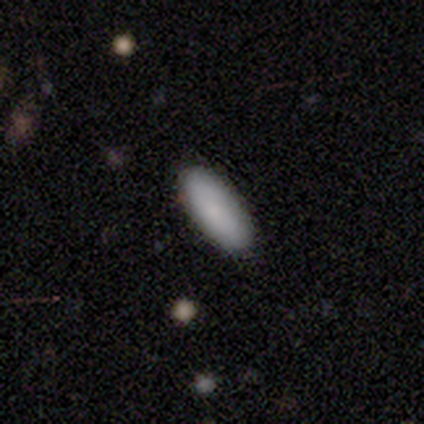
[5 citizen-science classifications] smooth_or_featured: smooth (p=1.00)
how_rounded: cigar-shaped (p=0.60) [alt: in between p=0.40]
merging: none (p=1.00)